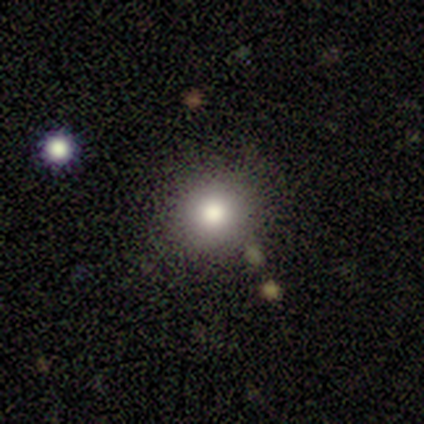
This is likely a smooth galaxy (79%). How rounded: clearly round (100%). Merging: clearly none (83%).